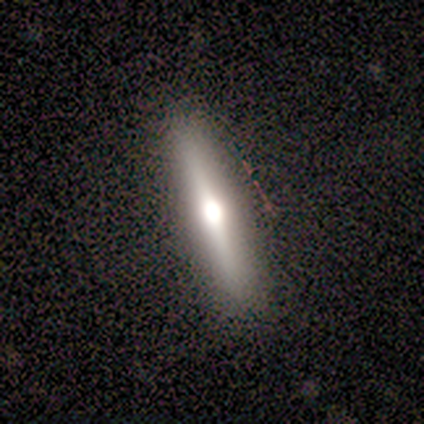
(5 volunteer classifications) Smooth or featured: featured or disk — 60% (smooth — 40%)
Edge-on disk: yes — 100%
Edge-on bulge: rounded — 100%
Merging: none — 100%